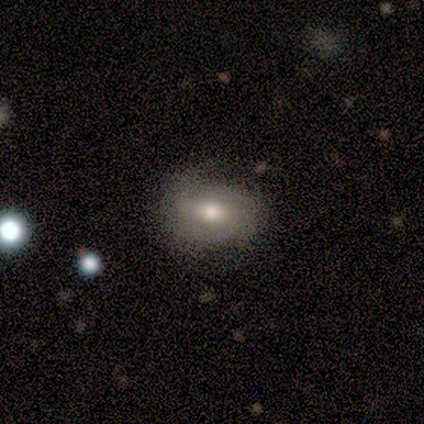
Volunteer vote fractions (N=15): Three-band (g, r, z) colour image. It shows a smooth galaxy with no disk features (60%) that is in between round and cigar-shaped (78%). Merging: none (71%).